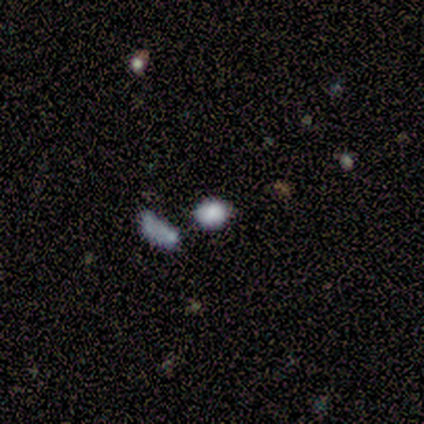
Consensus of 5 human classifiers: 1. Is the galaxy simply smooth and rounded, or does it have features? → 80% smooth, 20% star or artifact, 0% featured or disk.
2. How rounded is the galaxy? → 75% round, 25% in between, 0% cigar-shaped.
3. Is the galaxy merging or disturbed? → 75% none, 25% merger, 0% minor disturbance, 0% major disturbance.